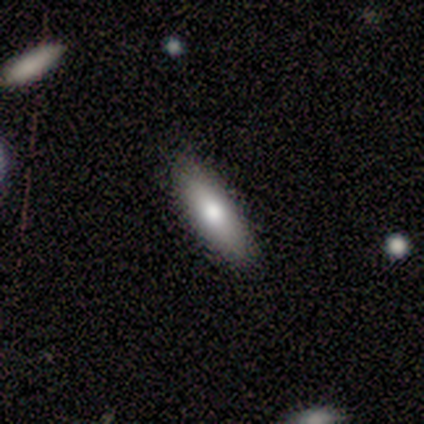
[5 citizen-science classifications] This is clearly a smooth galaxy (80%). How rounded: likely cigar-shaped (75%). Merging: likely none (75%).